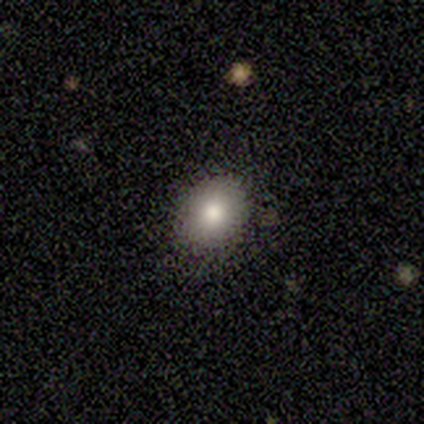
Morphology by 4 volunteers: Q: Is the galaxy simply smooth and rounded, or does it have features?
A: smooth — 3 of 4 (75%).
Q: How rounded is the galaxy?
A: round — 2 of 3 (67%).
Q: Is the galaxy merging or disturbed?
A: none — 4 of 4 (100%).